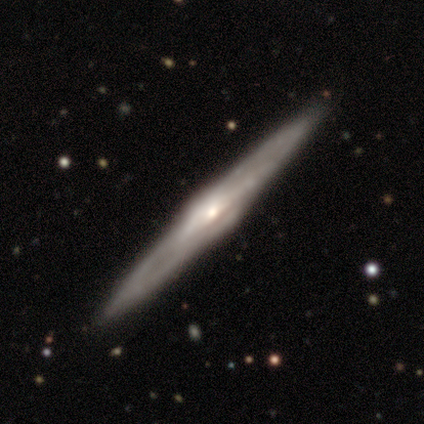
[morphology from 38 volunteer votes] Smooth or featured?
  - featured or disk: 97% *
  - smooth: 3%
  - star or artifact: 0%
Edge-on disk?
  - yes: 95% *
  - no: 5%
Edge-on bulge?
  - rounded: 89% *
  - boxy: 6%
  - none: 6%
Merging?
  - none: 92% *
  - merger: 5%
  - major disturbance: 3%
  - minor disturbance: 0%